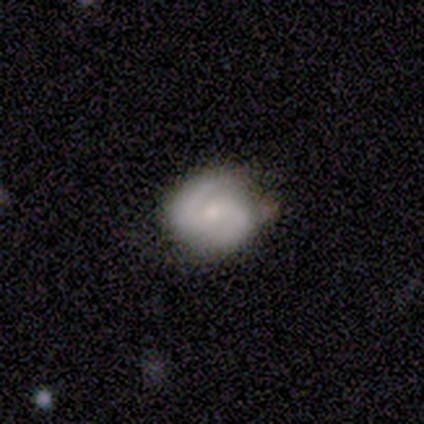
A smooth galaxy with no disk features (60%) that is round (100%).

Vote fractions:
- Smooth or featured? smooth: 60% / featured or disk: 40% / star or artifact: 0%
- How rounded? round: 100% / in between: 0% / cigar-shaped: 0%
- Merging? none: 60% / minor disturbance: 40% / major disturbance: 0% / merger: 0%